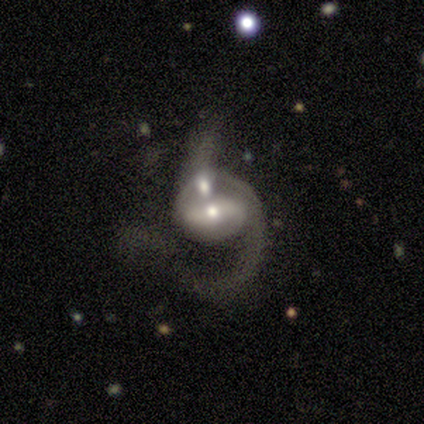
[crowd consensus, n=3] A featured or disk galaxy (100%) with a strong bar (67%), 2 (67%) tight (33%, tied with medium and loose) spiral arms (100%) and a moderate central bulge (67%). Merging: merger (67%).